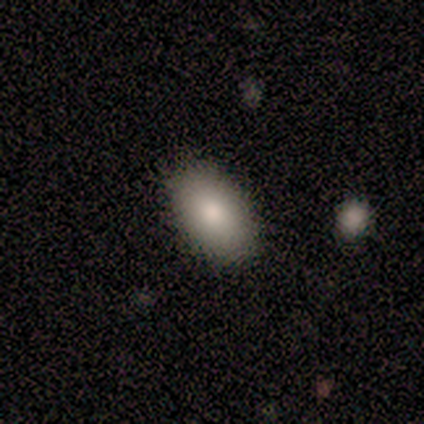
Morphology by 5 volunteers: Smooth or featured?
  - smooth: 60% *
  - featured or disk: 40%
  - star or artifact: 0%
How rounded?
  - in between: 100% *
  - round: 0%
  - cigar-shaped: 0%
Merging?
  - none: 100% *
  - minor disturbance: 0%
  - major disturbance: 0%
  - merger: 0%